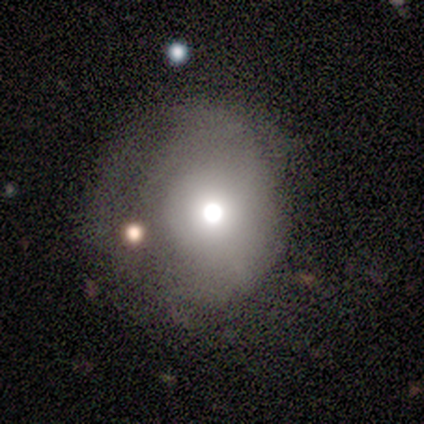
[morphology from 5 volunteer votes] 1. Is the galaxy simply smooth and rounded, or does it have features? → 80% smooth, 20% featured or disk, 0% star or artifact.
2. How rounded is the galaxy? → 75% round, 25% in between, 0% cigar-shaped.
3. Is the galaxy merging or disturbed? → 60% minor disturbance, 40% none, 0% major disturbance, 0% merger.